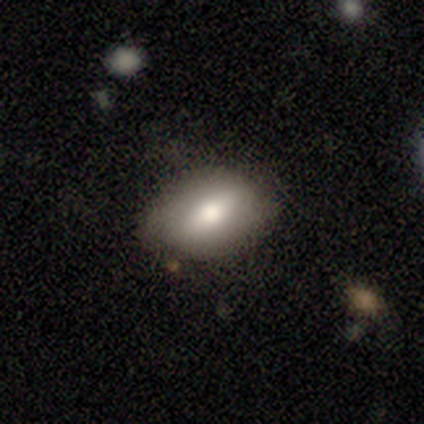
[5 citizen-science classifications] Smooth or featured? 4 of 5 (80%) said smooth. How rounded? 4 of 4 (100%) said in between. Merging? 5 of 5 (100%) said none.